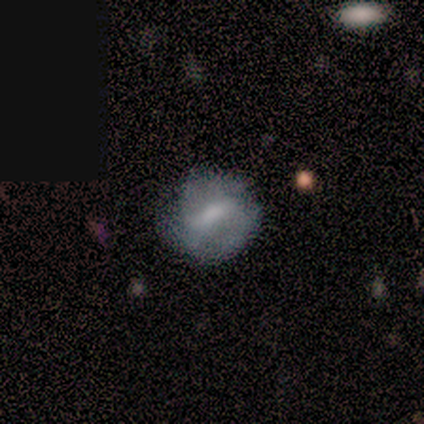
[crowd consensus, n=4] This is likely a smooth galaxy (75%). How rounded: clearly round (100%). Merging: likely none (75%).